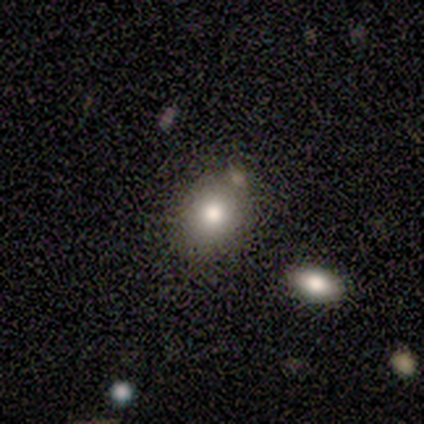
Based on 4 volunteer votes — Smooth or featured?
  - smooth: 50% *
  - featured or disk: 25%
  - star or artifact: 25%
How rounded?
  - round: 100% *
  - in between: 0%
  - cigar-shaped: 0%
Merging?
  - none: 100% *
  - minor disturbance: 0%
  - major disturbance: 0%
  - merger: 0%